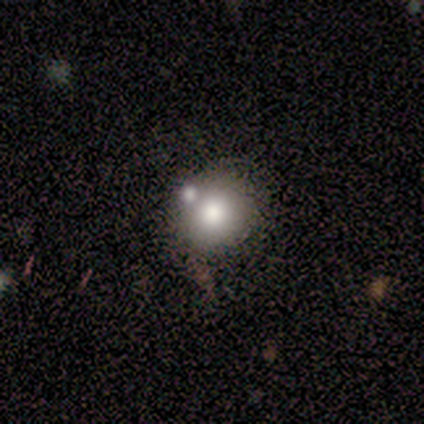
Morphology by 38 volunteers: A smooth galaxy with no disk features (61%) that is round (87%). Merging: none (53%).